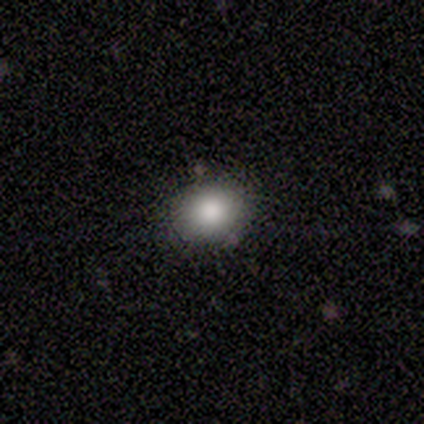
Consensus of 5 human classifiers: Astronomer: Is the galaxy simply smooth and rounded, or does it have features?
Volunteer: smooth — 80%.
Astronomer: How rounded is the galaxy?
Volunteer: round — 75%.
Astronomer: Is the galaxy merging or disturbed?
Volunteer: none — 75%.